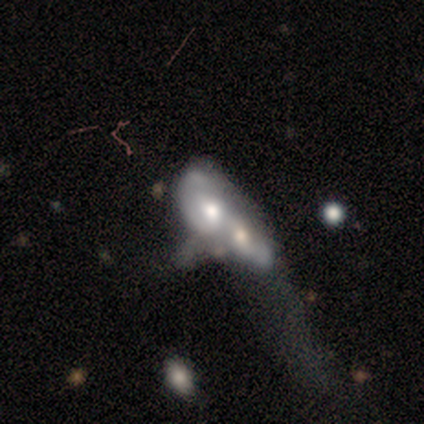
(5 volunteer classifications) Smooth or featured? 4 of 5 (80%) said featured or disk. Edge-on disk? 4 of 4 (100%) said no. Bar? 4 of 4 (100%) said no. Spiral arms? 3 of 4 (75%) said no. Bulge size? 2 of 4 (50%) said moderate. Merging? 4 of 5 (80%) said merger.